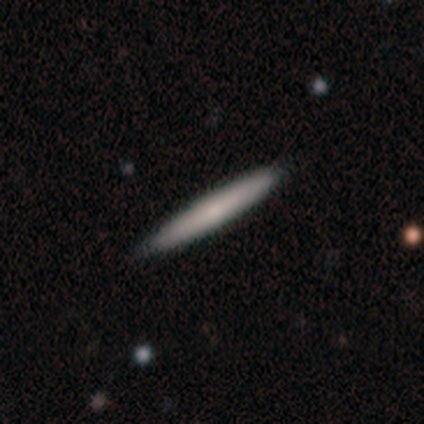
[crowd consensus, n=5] A featured or disk galaxy (60%) viewed edge-on (67%) with no central bulge (50%, tied with rounded).

Vote fractions:
- Smooth or featured? featured or disk: 60% / smooth: 40% / star or artifact: 0%
- Edge-on disk? yes: 67% / no: 33%
- Edge-on bulge? none: 50% (tied) / rounded: 50% (tied) / boxy: 0%
- Merging? none: 100% / minor disturbance: 0% / major disturbance: 0% / merger: 0%